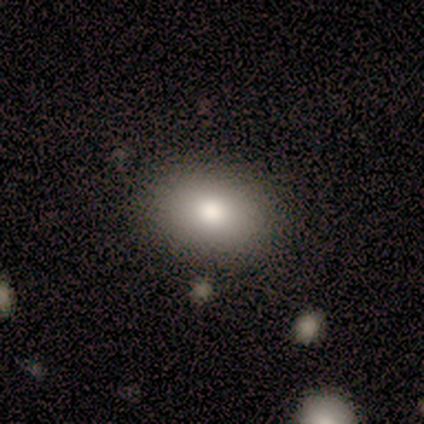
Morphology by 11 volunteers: Smooth or featured? smooth (82%)
How rounded? in between (78%)
Merging? none (100%)